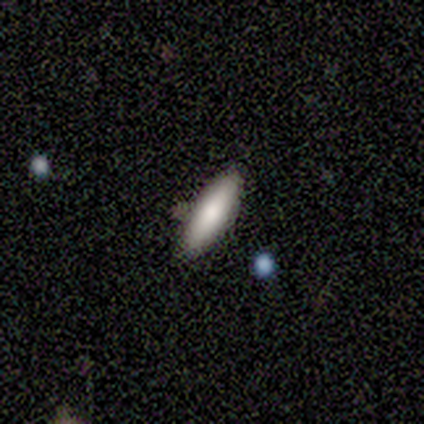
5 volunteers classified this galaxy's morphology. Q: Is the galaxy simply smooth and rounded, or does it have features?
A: smooth — 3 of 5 (60%).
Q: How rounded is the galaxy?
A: in between — 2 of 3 (67%).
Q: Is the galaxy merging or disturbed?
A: none — 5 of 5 (100%).